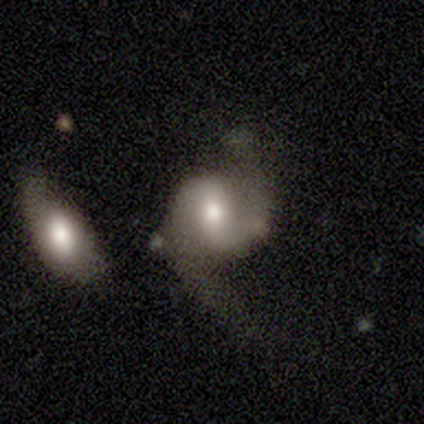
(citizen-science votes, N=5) Smooth or featured? featured or disk (100%)
Edge-on disk? no (100%)
Bar? no (60%)
Spiral arms? yes (80%)
Spiral winding? loose (75%)
Spiral arm count? 2 (100%)
Bulge size? large (40%, tied with moderate)
Merging? none (60%)